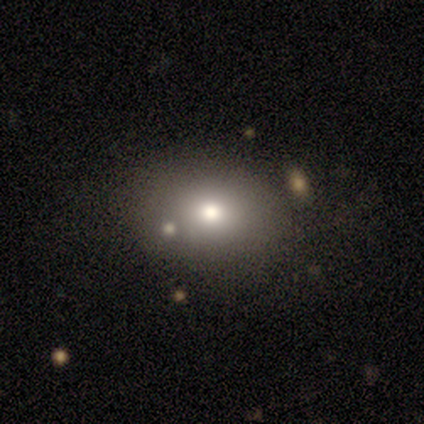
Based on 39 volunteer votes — smooth 72%, star or artifact 15%, featured or disk 13%. Down the decision tree: how rounded — round (57%); merging — none (73%).